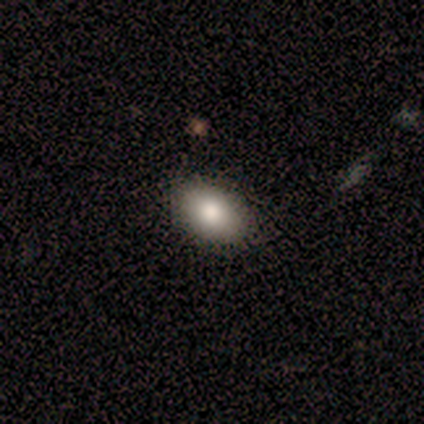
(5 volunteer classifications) Smooth or featured: smooth — 100%
How rounded: in between — 60% (round — 40%)
Merging: none — 60% (minor disturbance — 40%)